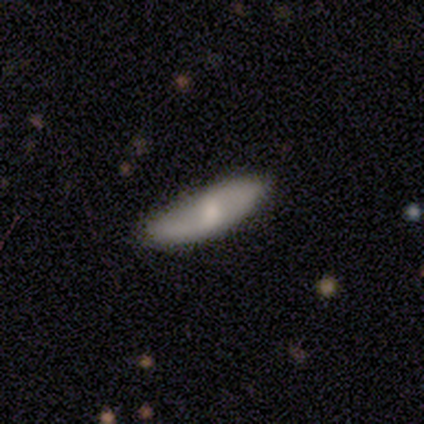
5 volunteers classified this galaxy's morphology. Smooth or featured: smooth — 80% (featured or disk — 20%)
How rounded: cigar-shaped — 100%
Merging: none — 80% (merger — 20%)